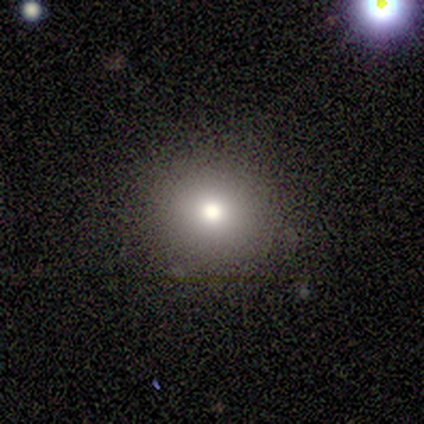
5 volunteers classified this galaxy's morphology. Volunteers were most divided on "smooth or featured": smooth: 60%, featured or disk: 20%, star or artifact: 20%. More confident: how rounded — round (100%); merging — none (100%).